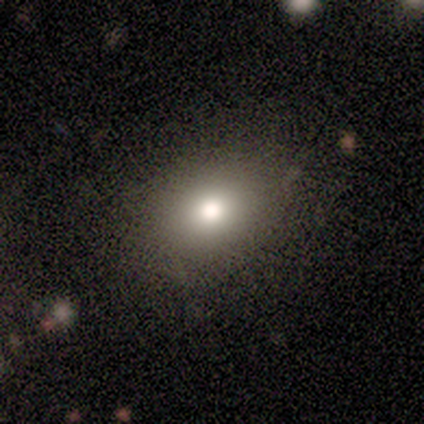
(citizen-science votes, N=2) A smooth galaxy with no disk features (100%) that is in between round and cigar-shaped (100%). Merging: none (50%, tied with minor disturbance).